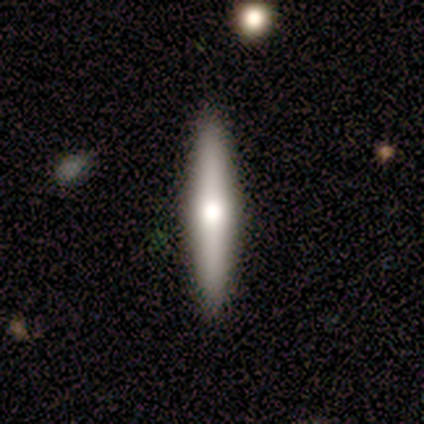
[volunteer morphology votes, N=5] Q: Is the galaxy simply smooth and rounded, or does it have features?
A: featured or disk — 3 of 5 (60%).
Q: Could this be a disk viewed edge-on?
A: yes — 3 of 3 (100%).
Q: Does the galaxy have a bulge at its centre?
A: rounded — 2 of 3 (67%).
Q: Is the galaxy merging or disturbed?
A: none — 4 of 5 (80%).